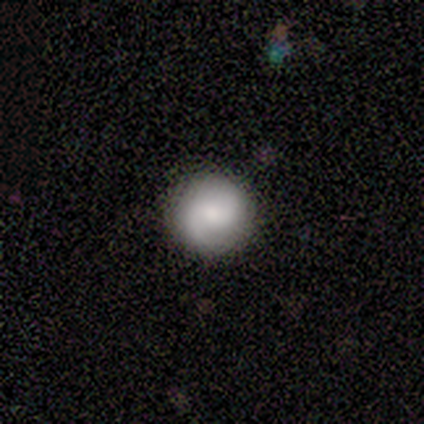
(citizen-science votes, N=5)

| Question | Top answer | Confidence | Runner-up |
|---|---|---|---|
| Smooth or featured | smooth | 60% | featured or disk (40%) |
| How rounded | round | 100% | — |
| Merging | none | 100% | — |